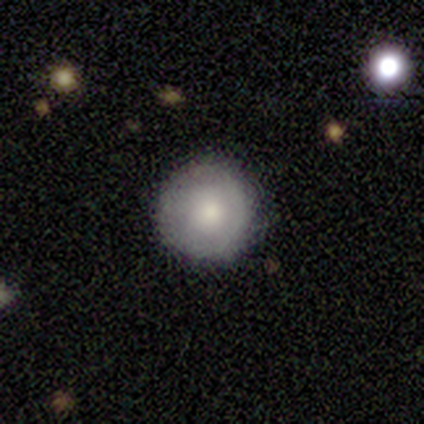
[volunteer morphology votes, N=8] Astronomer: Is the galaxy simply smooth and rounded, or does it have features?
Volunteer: smooth — 100%.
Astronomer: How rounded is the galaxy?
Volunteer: round — 100%.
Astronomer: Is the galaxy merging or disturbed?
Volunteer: none — 100%.